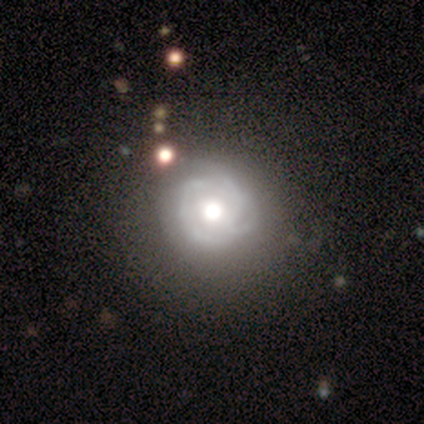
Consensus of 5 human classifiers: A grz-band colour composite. It shows a featured or disk galaxy (100%) with no bar (100%), 3 (33%, tied with 4 and can't tell) tight (67%) spiral arms (75%) and a large central bulge (75%). Merging: minor disturbance (60%).